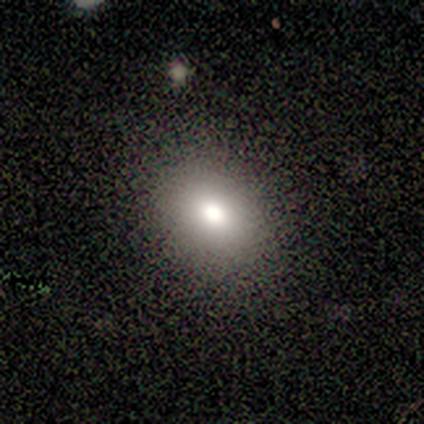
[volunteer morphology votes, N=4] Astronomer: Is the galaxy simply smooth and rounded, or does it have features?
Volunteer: smooth — 50%.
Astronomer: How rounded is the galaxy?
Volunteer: round — 50%, tied with in between at 50%.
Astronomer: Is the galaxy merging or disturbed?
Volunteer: none — 100%.